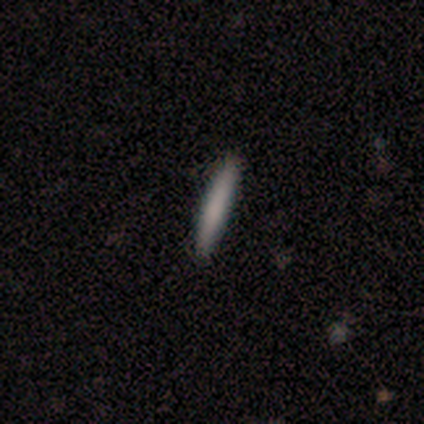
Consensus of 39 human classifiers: Overall: smooth (82%). How rounded: cigar-shaped (94%). Merging: none (97%).